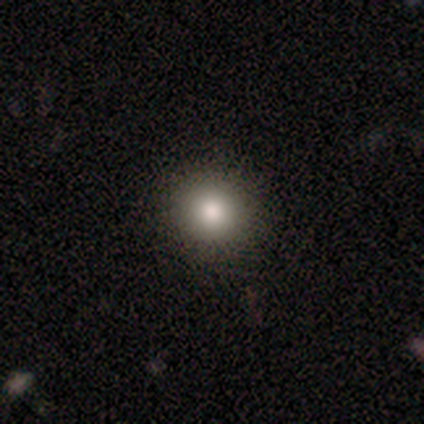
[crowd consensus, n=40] smooth 82%, star or artifact 10%, featured or disk 8%. Down the decision tree: how rounded — round (97%); merging — none (97%).